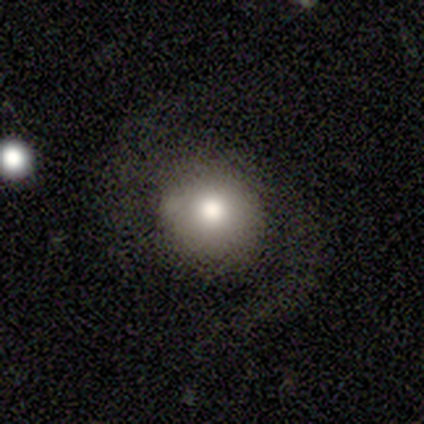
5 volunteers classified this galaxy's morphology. smooth 60%, featured or disk 40%, star or artifact 0%. Down the decision tree: how rounded — round (100%); merging — none (100%).